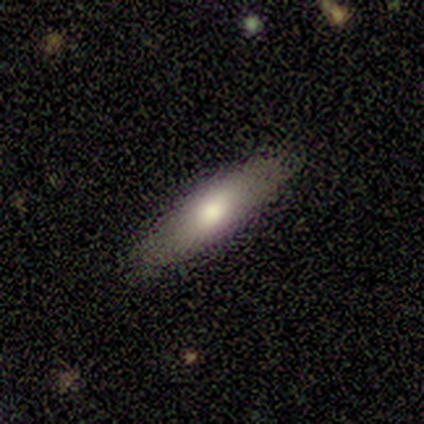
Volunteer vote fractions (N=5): Q: Smooth or featured?
A: smooth (80%); runner-up: featured or disk (20%)
Q: How rounded?
A: cigar-shaped (75%); runner-up: in between (25%)
Q: Merging?
A: none (80%); runner-up: minor disturbance (20%)